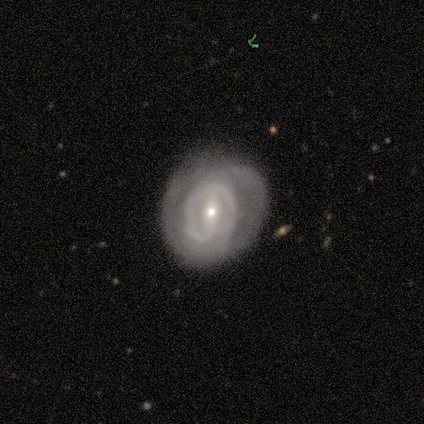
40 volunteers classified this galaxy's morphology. type=featured or disk (88%); edge-on=no (83%); bar=weak (38%); spiral arms=yes (72%); winding=tight (67%); arm count=2 (48%); bulge=small (66%); merging=none (65%).